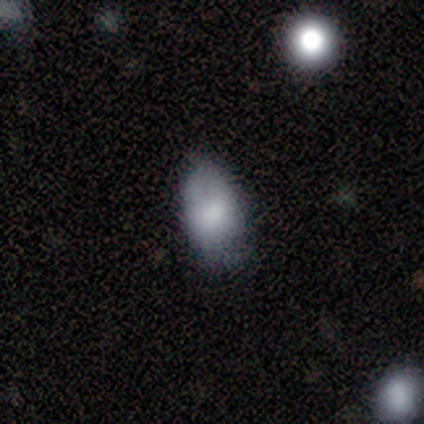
smooth-or-featured: smooth: 100% | featured or disk: 0% | star or artifact: 0%
  how-rounded: in between: 100% | round: 0% | cigar-shaped: 0%
  merging: none: 100% | minor disturbance: 0% | major disturbance: 0% | merger: 0%